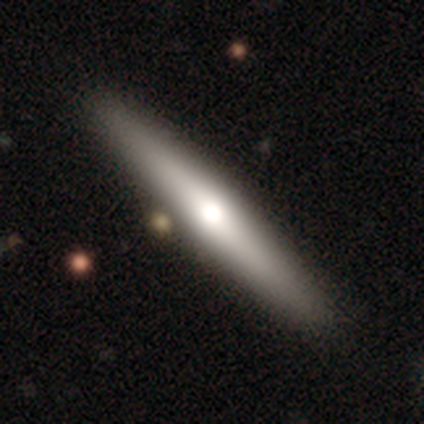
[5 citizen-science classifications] Smooth or featured? smooth (60%)
How rounded? cigar-shaped (67%)
Merging? none (100%)